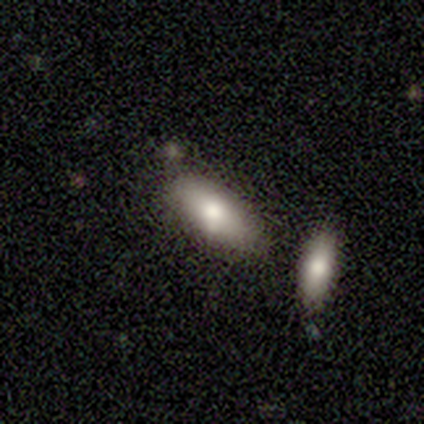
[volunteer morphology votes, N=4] Q: Smooth or featured?
A: smooth (100%)
Q: How rounded?
A: in between (100%)
Q: Merging?
A: none (50%); tied with: merger (50%)